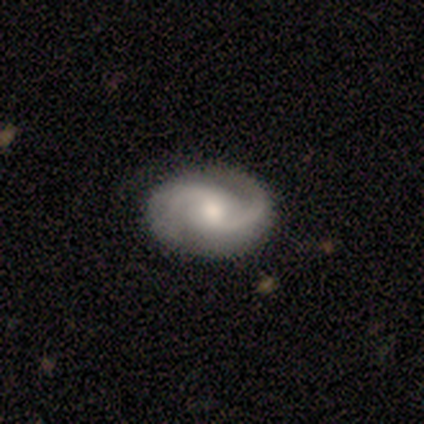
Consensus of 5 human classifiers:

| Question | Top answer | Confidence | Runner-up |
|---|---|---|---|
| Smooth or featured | featured or disk | 100% | — |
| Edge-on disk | no | 100% | — |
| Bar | weak | 60% | strong (20%) |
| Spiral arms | yes | 100% | — |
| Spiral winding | medium | 60% | loose (40%) |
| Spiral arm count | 2 | 100% | — |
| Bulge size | moderate | 80% | small (20%) |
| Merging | none | 100% | — |